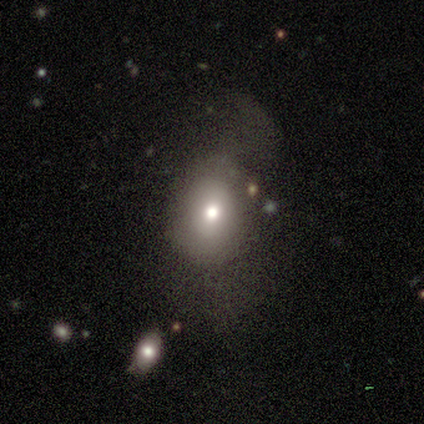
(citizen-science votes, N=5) This is clearly a smooth galaxy (80%). How rounded: clearly in between (100%). Merging: likely major disturbance (60%).